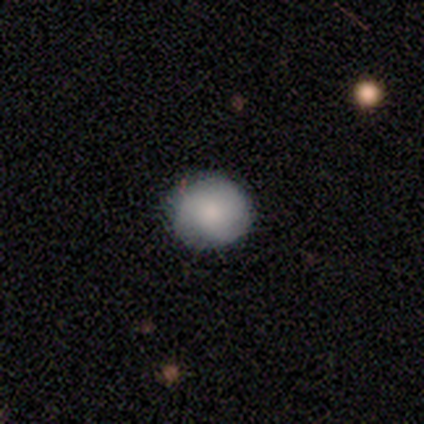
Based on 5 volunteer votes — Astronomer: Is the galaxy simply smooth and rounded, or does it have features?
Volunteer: smooth — 100%.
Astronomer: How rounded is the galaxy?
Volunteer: round — 60% (runner-up: in between, 40%).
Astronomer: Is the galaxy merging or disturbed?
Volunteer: none — 100%.